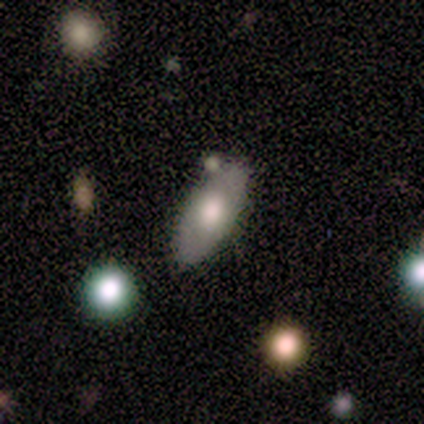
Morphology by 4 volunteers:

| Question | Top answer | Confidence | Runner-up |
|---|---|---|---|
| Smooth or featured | smooth | 100% | — |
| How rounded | in between | 75% | cigar-shaped (25%) |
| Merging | none | 100% | — |